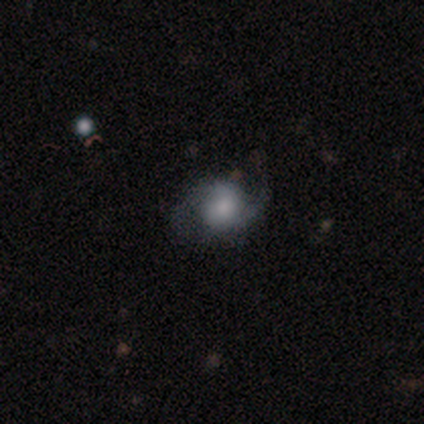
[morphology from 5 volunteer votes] Smooth or featured? smooth (80%)
How rounded? round (50%, tied with in between)
Merging? minor disturbance (40%, tied with major disturbance)